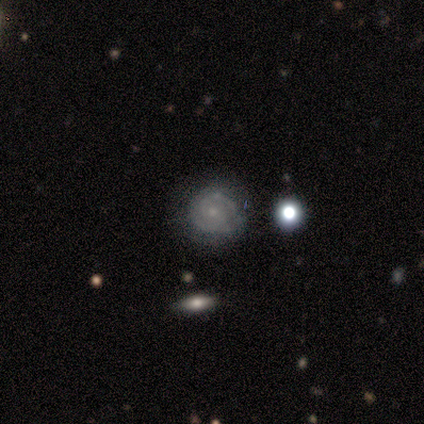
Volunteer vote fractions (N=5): Morphology: type=featured or disk (80%); edge-on=no (100%); bar=no (100%); spiral arms=yes (75%); winding=tight (33%, tied with medium and loose); arm count=2 (67%); bulge=small (100%); merging=none (60%).